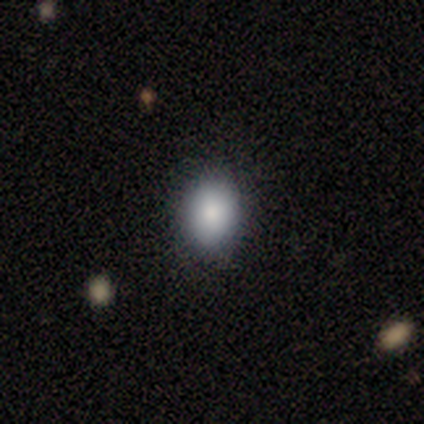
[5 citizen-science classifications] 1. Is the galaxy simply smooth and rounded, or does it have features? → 80% smooth, 20% featured or disk, 0% star or artifact.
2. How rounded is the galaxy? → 75% round, 25% in between, 0% cigar-shaped.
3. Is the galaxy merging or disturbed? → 100% none, 0% minor disturbance, 0% major disturbance, 0% merger.